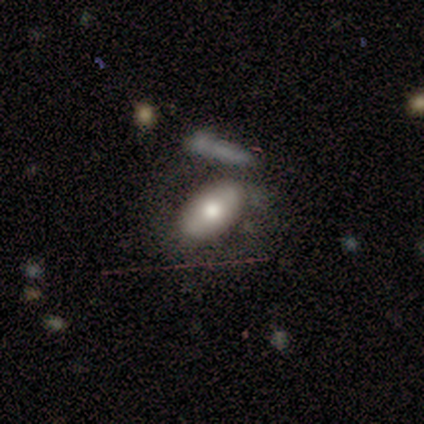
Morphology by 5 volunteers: Smooth or featured? smooth (60%)
How rounded? in between (100%)
Merging? major disturbance (75%)